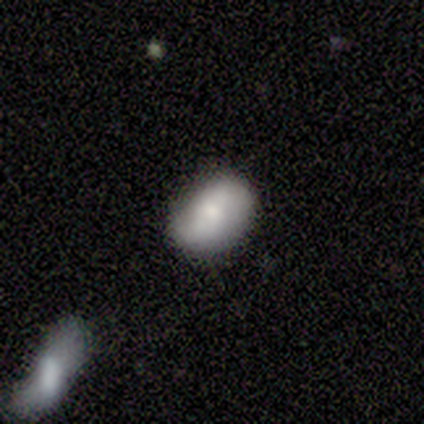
Volunteers were most divided on "smooth or featured": smooth: 60%, star or artifact: 40%, featured or disk: 0%. More confident: how rounded — in between (67%); merging — none (67%).